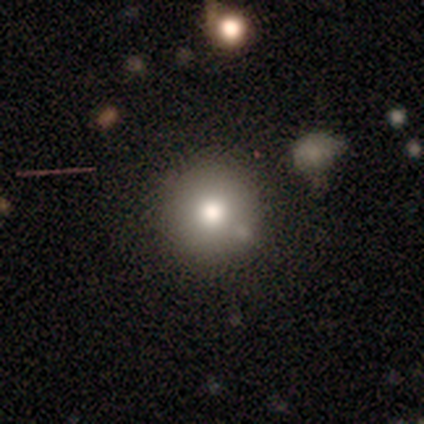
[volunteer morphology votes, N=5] smooth 80%, featured or disk 20%, star or artifact 0%. Down the decision tree: how rounded — round (75%); merging — none (60%).